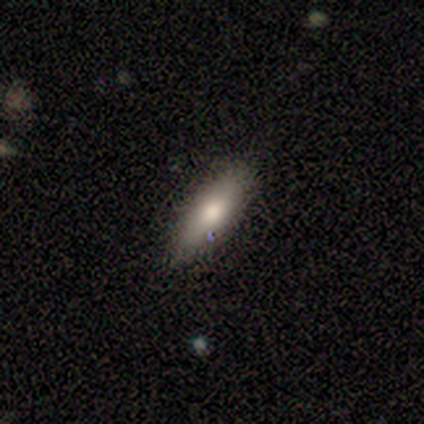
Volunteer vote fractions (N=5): Overall: smooth (60%; featured or disk 20%). How rounded: in between (67%; cigar-shaped 33%). Merging: none (75%).